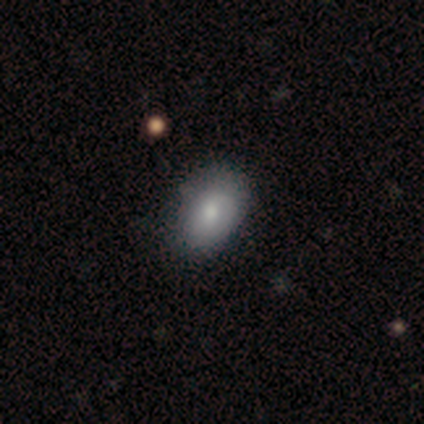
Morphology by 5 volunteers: Q: Smooth or featured?
A: featured or disk (60%); runner-up: smooth (20%)
Q: Edge-on disk?
A: no (67%); runner-up: yes (33%)
Q: Bar?
A: no (100%)
Q: Spiral arms?
A: no (100%)
Q: Bulge size?
A: moderate (50%); tied with: none (50%)
Q: Merging?
A: none (50%); tied with: major disturbance (50%)